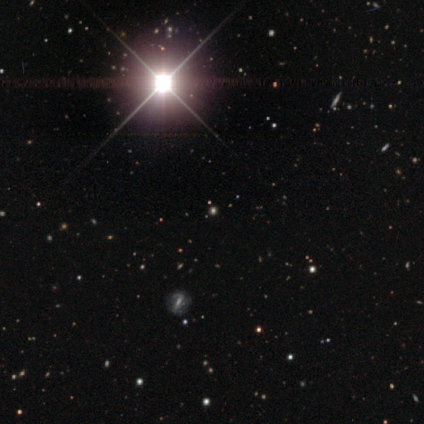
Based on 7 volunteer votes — A star or artifact, not a galaxy (71%).

Vote fractions:
- Smooth or featured? star or artifact: 71% / smooth: 29% / featured or disk: 0%